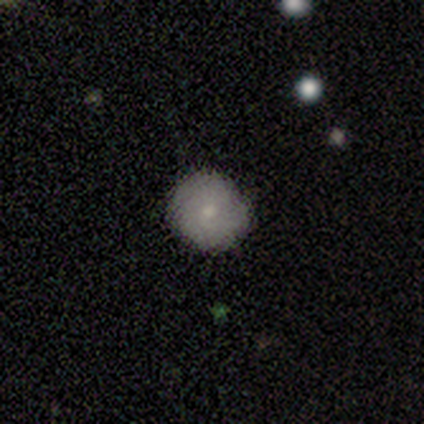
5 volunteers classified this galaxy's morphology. smooth_or_featured: smooth (p=0.80) [alt: star or artifact p=0.20]
how_rounded: round (p=1.00)
merging: none (p=0.50) [tied with: minor disturbance p=0.50]